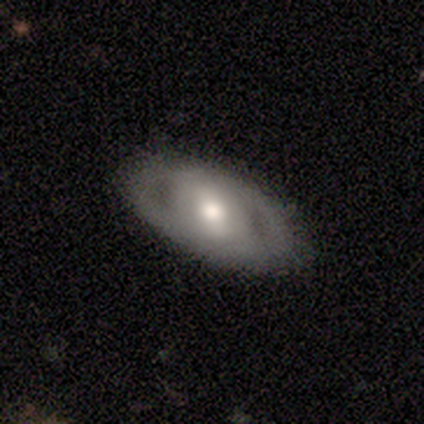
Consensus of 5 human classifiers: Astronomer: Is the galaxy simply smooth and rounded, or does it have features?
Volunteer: smooth — 80%.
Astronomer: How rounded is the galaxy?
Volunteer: in between — 75%.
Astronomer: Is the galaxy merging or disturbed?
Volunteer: none — 80%.